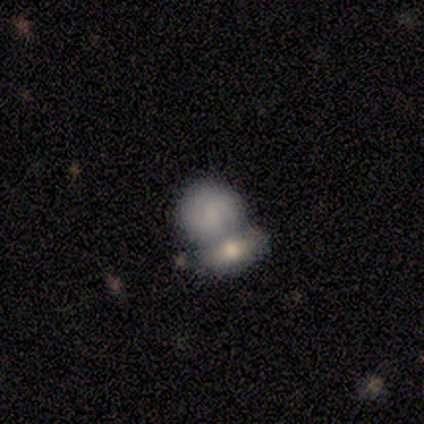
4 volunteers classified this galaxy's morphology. smooth-or-featured: smooth: 50% | featured or disk: 25% | star or artifact: 25%
  how-rounded: round: 50% (tied) | in between: 50% (tied) | cigar-shaped: 0%
  merging: merger: 100% | none: 0% | minor disturbance: 0% | major disturbance: 0%